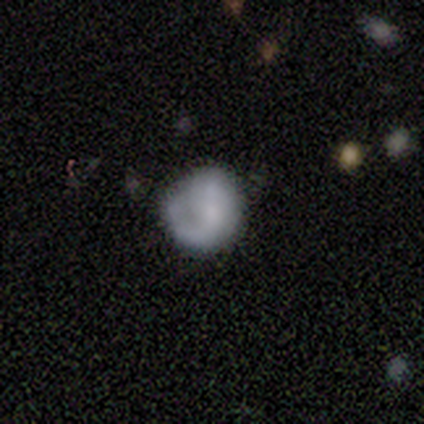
Smooth or featured? featured or disk (60%)
Edge-on disk? no (100%)
Bar? no (100%)
Spiral arms? no (67%)
Bulge size? small (67%)
Merging? none (60%)